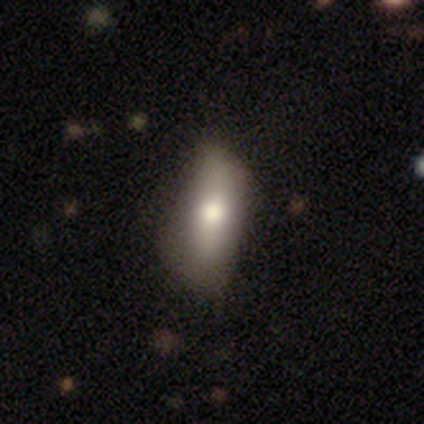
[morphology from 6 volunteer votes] Q: Smooth or featured?
A: smooth (83%); runner-up: star or artifact (17%)
Q: How rounded?
A: in between (80%); runner-up: cigar-shaped (20%)
Q: Merging?
A: none (60%); runner-up: minor disturbance (20%)